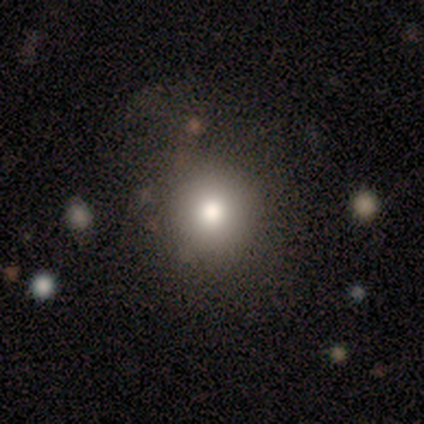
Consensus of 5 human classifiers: Overall: smooth (80%). How rounded: round (100%). Merging: none (80%).